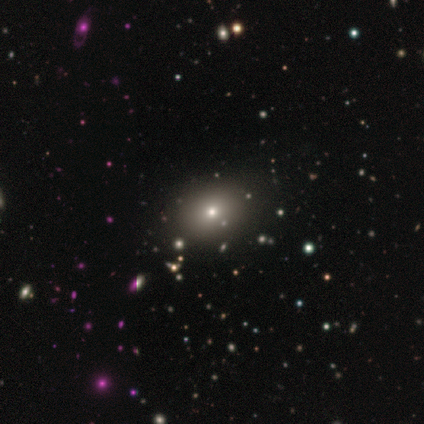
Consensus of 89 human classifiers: Volunteers were most divided on "how rounded" (2-way tie): round: 50%, in between: 50%, cigar-shaped: 0%. More confident: merging — none (89%); smooth or featured — smooth (58%).